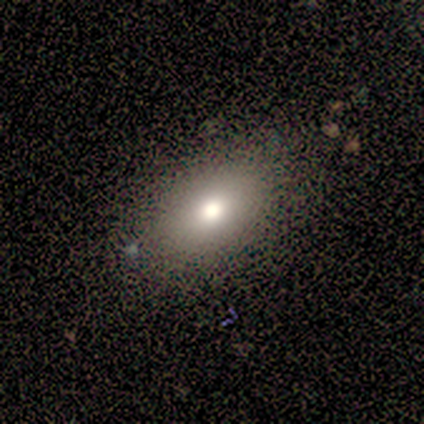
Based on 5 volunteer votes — smooth_or_featured: smooth (p=0.60) [alt: featured or disk p=0.40]
how_rounded: in between (p=1.00)
merging: none (p=0.80) [alt: minor disturbance p=0.20]